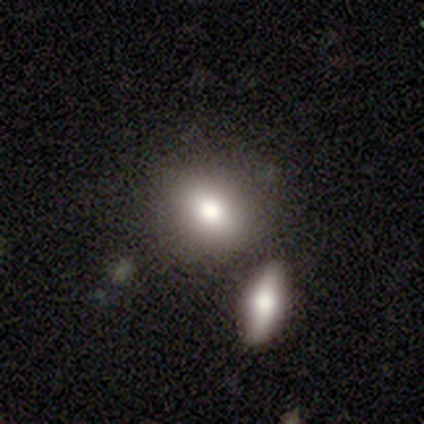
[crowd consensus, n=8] Q: Smooth or featured?
A: smooth (88%); runner-up: featured or disk (12%)
Q: How rounded?
A: round (57%); runner-up: in between (43%)
Q: Merging?
A: none (75%); runner-up: merger (25%)